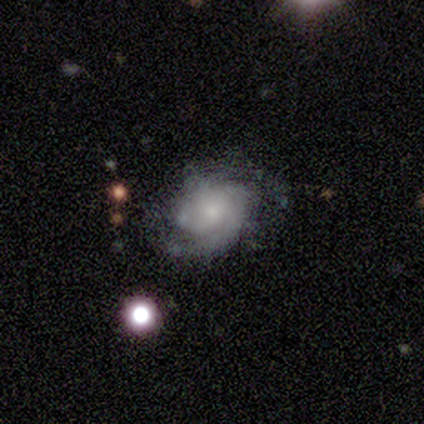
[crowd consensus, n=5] smooth_or_featured: featured or disk (p=0.80) [alt: smooth p=0.20]
disk_edge_on: no (p=0.75) [alt: yes p=0.25]
bar: no (p=1.00)
has_spiral_arms: yes (p=1.00)
spiral_winding: medium (p=0.67) [alt: loose p=0.33]
spiral_arm_count: 1 (p=0.33) [tied with: 2 p=0.33, can't tell p=0.33]
bulge_size: small (p=0.67) [alt: moderate p=0.33]
merging: minor disturbance (p=0.60) [alt: none p=0.40]